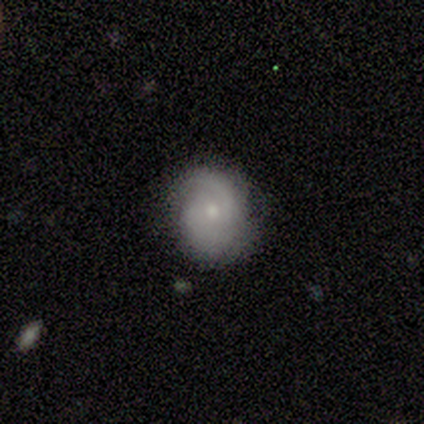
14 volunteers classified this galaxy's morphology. Smooth or featured: featured or disk — 79% (smooth — 21%)
Edge-on disk: no — 100%
Bar: no — 73% (weak — 27%)
Spiral arms: yes — 91% (no — 9%)
Spiral winding: medium — 60% (tight — 30%)
Spiral arm count: 2 — 60% (can't tell — 30%)
Bulge size: small — 55% (moderate — 36%)
Merging: none — 71% (minor disturbance — 21%)